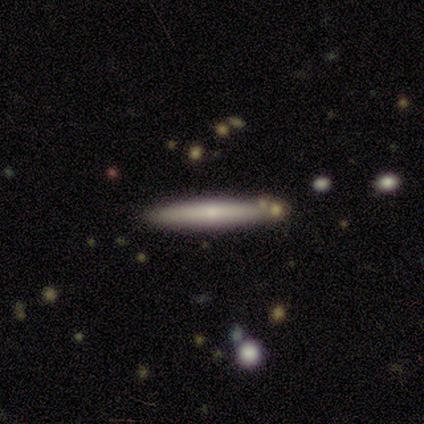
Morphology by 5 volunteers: Smooth or featured?
  - smooth: 60% *
  - featured or disk: 20%
  - star or artifact: 20%
How rounded?
  - cigar-shaped: 100% *
  - round: 0%
  - in between: 0%
Merging?
  - none: 100% *
  - minor disturbance: 0%
  - major disturbance: 0%
  - merger: 0%